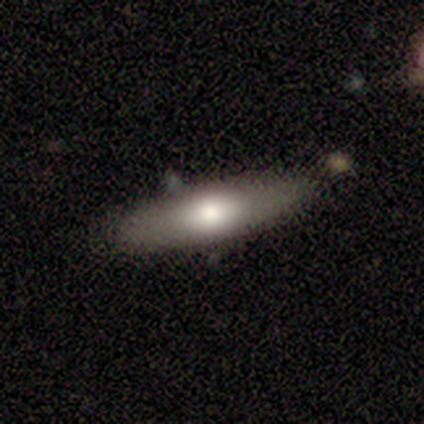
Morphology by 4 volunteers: Volunteers were most divided on "smooth or featured": smooth: 75%, featured or disk: 25%, star or artifact: 0%. More confident: how rounded — cigar-shaped (100%); merging — none (100%).